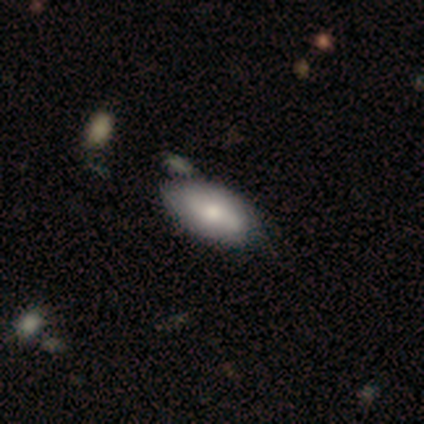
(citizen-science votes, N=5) Volunteers were most divided on "smooth or featured": smooth: 60%, featured or disk: 40%, star or artifact: 0%. More confident: how rounded — in between (100%); merging — minor disturbance (60%).